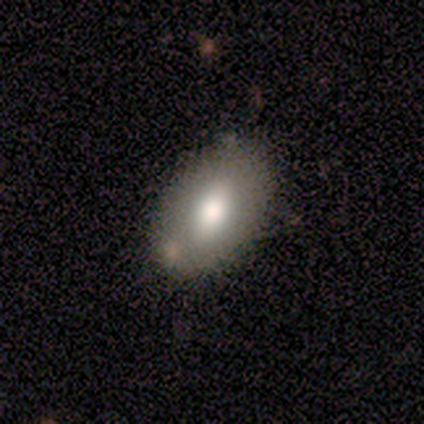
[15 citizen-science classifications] A smooth galaxy with no disk features (67%) that is in between round and cigar-shaped (100%). Merging: none (87%).